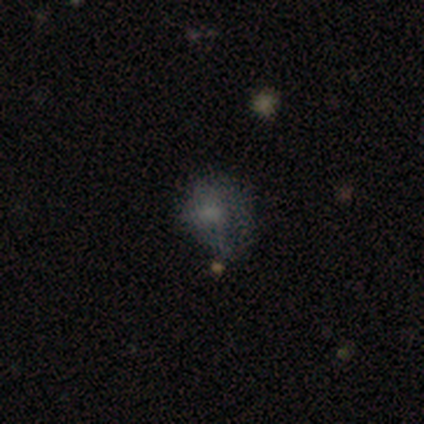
Volunteers were most divided on "merging": minor disturbance: 50%, none: 25%, major disturbance: 25%, merger: 0%. More confident: how rounded — in between (100%); smooth or featured — smooth (80%).